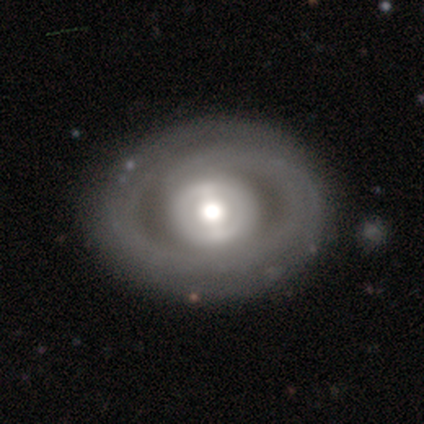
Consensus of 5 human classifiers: Volunteers were most divided on "smooth or featured" (2-way tie): smooth: 40%, star or artifact: 40%, featured or disk: 20%; "how rounded" (2-way tie): round: 50%, in between: 50%, cigar-shaped: 0%. More confident: merging — none (100%).